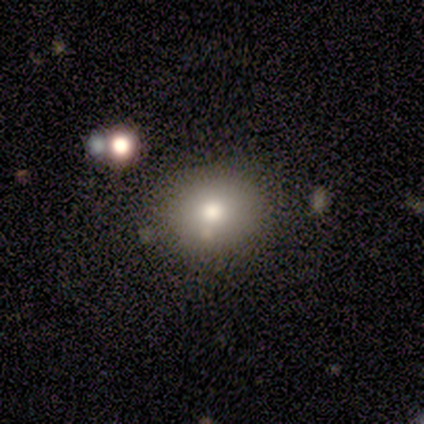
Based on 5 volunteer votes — Smooth or featured? smooth (100%)
How rounded? in between (60%)
Merging? none (80%)